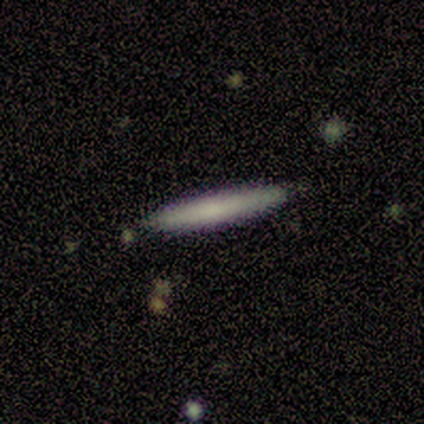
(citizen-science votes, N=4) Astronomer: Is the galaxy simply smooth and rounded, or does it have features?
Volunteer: smooth — 75%.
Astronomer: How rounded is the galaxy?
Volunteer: cigar-shaped — 100%.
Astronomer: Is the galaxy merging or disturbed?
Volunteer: none — 100%.